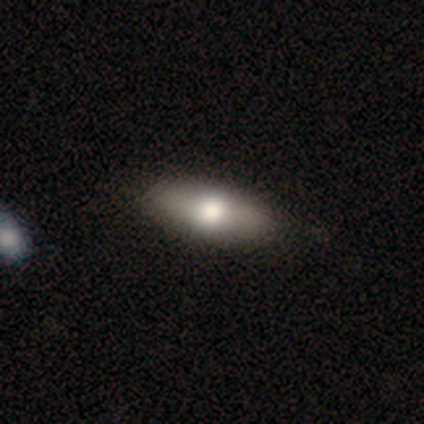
Morphology: type=smooth (63%); roundness=in between (69%); merging=none (53%).